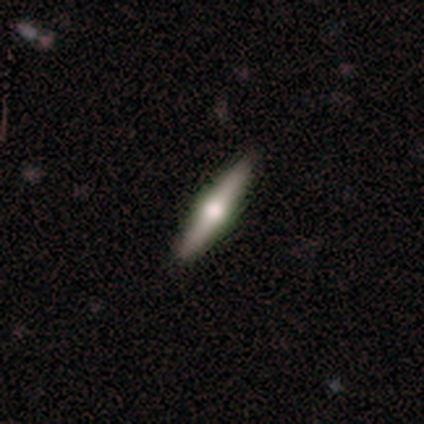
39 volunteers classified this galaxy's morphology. A featured or disk galaxy (79%) viewed edge-on (94%) with a rounded central bulge (97%). Merging: none (100%).